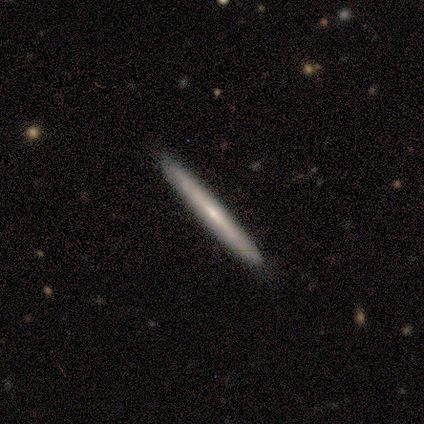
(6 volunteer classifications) Smooth or featured: featured or disk — 67% (smooth — 33%)
Edge-on disk: yes — 100%
Edge-on bulge: none — 75% (rounded — 25%)
Merging: none — 83% (minor disturbance — 17%)